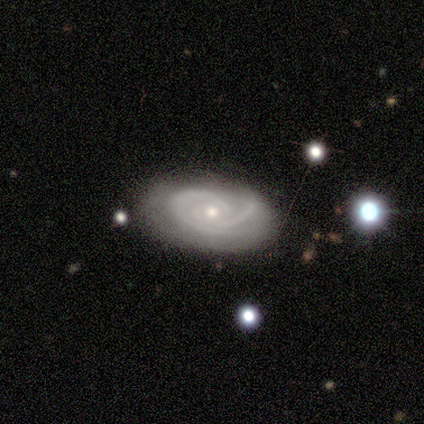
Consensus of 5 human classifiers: Smooth or featured: featured or disk — 100%
Edge-on disk: no — 100%
Bar: no — 80% (strong — 20%)
Spiral arms: yes — 100%
Spiral winding: tight — 60% (medium — 40%)
Spiral arm count: 2 — 80% (3 — 20%)
Bulge size: small — 80% (moderate — 20%)
Merging: none — 60% (minor disturbance — 40%)